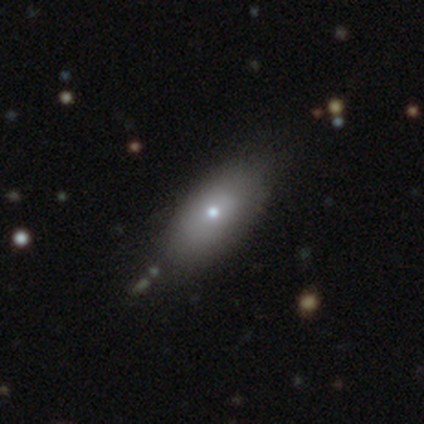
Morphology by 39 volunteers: Smooth or featured? smooth (74%)
How rounded? in between (76%)
Merging? none (82%)